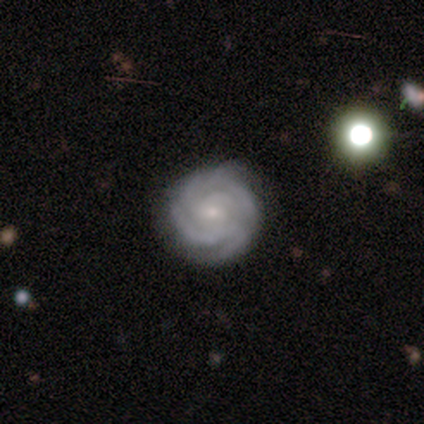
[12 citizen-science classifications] Smooth or featured? featured or disk (92%)
Edge-on disk? no (91%)
Bar? no (50%)
Spiral arms? yes (100%)
Spiral winding? tight (90%)
Spiral arm count? 4 (40%)
Bulge size? small (60%)
Merging? none (75%)